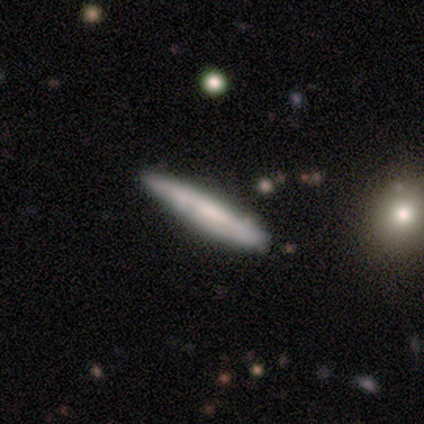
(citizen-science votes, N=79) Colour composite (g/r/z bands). It shows a smooth galaxy with no disk features (52%) that is cigar-shaped (93%). Merging: none (55%).